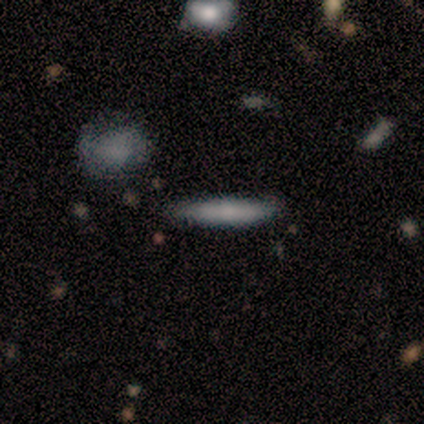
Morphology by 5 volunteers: Smooth or featured: smooth — 100%
How rounded: cigar-shaped — 100%
Merging: none — 80% (minor disturbance — 20%)